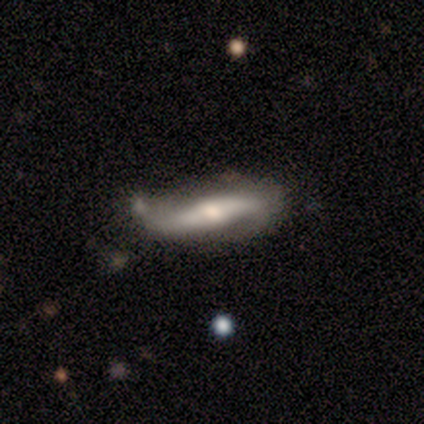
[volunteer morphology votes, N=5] smooth_or_featured: featured or disk (p=1.00)
disk_edge_on: no (p=0.80) [alt: yes p=0.20]
bar: strong (p=0.50) [alt: weak p=0.25]
has_spiral_arms: yes (p=1.00)
spiral_winding: loose (p=0.50) [alt: tight p=0.25]
spiral_arm_count: 2 (p=0.50) [alt: 1 p=0.25]
bulge_size: moderate (p=0.75) [alt: dominant p=0.25]
merging: none (p=0.40) [tied with: major disturbance p=0.40]